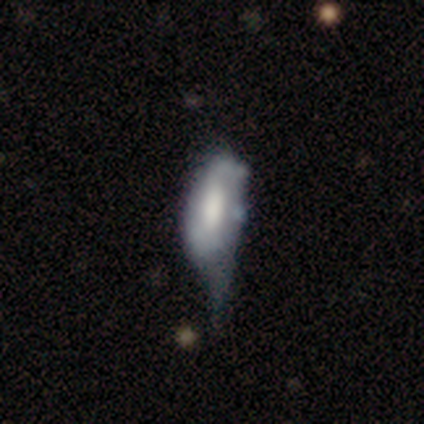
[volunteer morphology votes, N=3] Smooth or featured?
  - featured or disk: 67% *
  - smooth: 33%
  - star or artifact: 0%
Edge-on disk?
  - no: 100% *
  - yes: 0%
Bar?
  - strong: 50% * (tied)
  - weak: 50% * (tied)
  - no: 0%
Spiral arms?
  - yes: 50% * (tied)
  - no: 50% * (tied)
Spiral winding?
  - medium: 100% *
  - tight: 0%
  - loose: 0%
Spiral arm count?
  - 3: 100% *
  - 1: 0%
  - 2: 0%
  - 4: 0%
  - more than 4: 0%
  - can't tell: 0%
Bulge size?
  - large: 50% * (tied)
  - moderate: 50% * (tied)
  - dominant: 0%
  - small: 0%
  - none: 0%
Merging?
  - major disturbance: 67% *
  - minor disturbance: 33%
  - none: 0%
  - merger: 0%